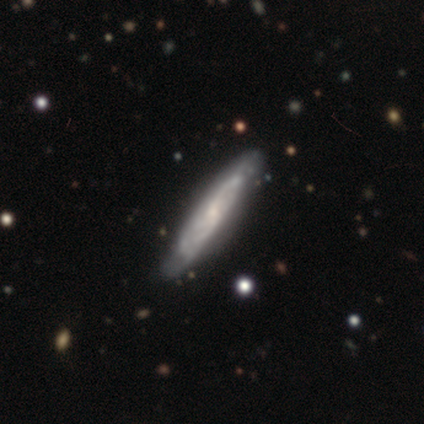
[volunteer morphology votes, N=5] This appears to be a featured or disk galaxy (100%) viewed edge-on (80%) with no central bulge (100%). Merging: none (80%).